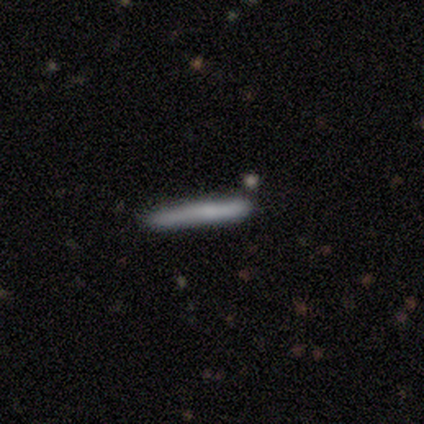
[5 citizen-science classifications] smooth 100%, featured or disk 0%, star or artifact 0%. Down the decision tree: how rounded — cigar-shaped (100%); merging — none (100%).